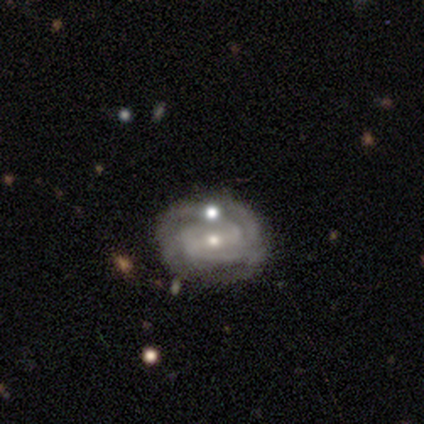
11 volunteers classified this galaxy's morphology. A featured or disk galaxy (91%) with a weak bar (40%, tied with no), 2 (44%) tight (67%) spiral arms (90%) and a small central bulge (60%).

Vote fractions:
- Smooth or featured? featured or disk: 91% / smooth: 9% / star or artifact: 0%
- Edge-on disk? no: 100% / yes: 0%
- Bar? weak: 40% (tied) / no: 40% (tied) / strong: 20%
- Spiral arms? yes: 90% / no: 10%
- Spiral winding? tight: 67% / medium: 22% / loose: 11%
- Spiral arm count? 2: 44% / 4: 22% / 1: 11% / 3: 11% / can't tell: 11% / more than 4: 0%
- Bulge size? small: 60% / moderate: 40% / dominant: 0% / large: 0% / none: 0%
- Merging? none: 82% / minor disturbance: 9% / major disturbance: 9% / merger: 0%